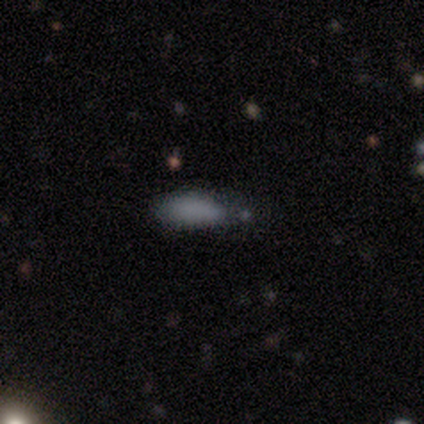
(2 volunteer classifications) Q: Smooth or featured?
A: smooth (50%); tied with: star or artifact (50%)
Q: How rounded?
A: in between (100%)
Q: Merging?
A: none (100%)